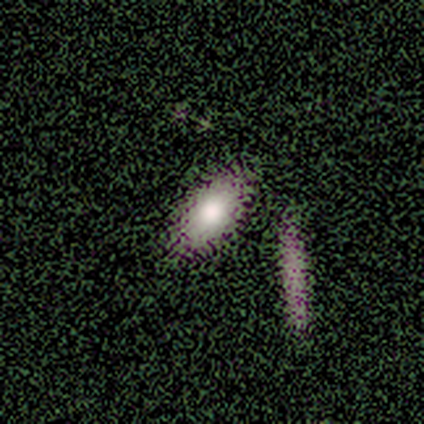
A smooth galaxy with no disk features (100%) that is in between round and cigar-shaped (75%). Merging: none (100%).